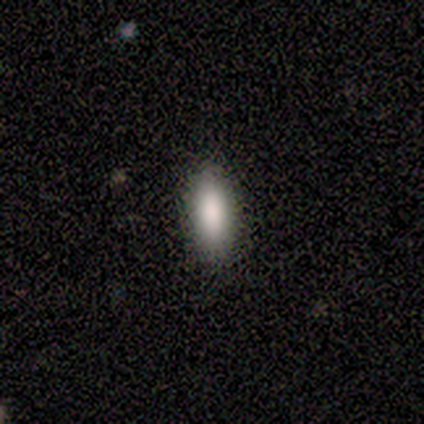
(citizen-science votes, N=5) This is clearly a smooth galaxy (80%). How rounded: likely in between (75%). Merging: clearly none (100%).